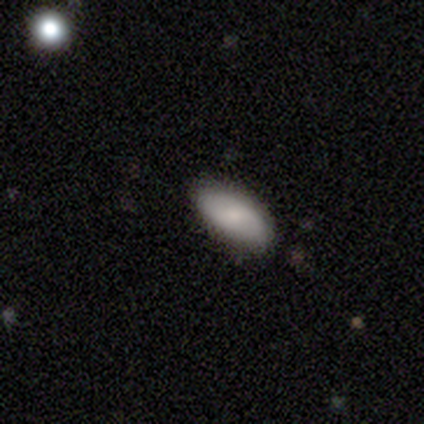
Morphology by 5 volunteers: Q: Smooth or featured?
A: smooth (100%)
Q: How rounded?
A: in between (100%)
Q: Merging?
A: none (100%)